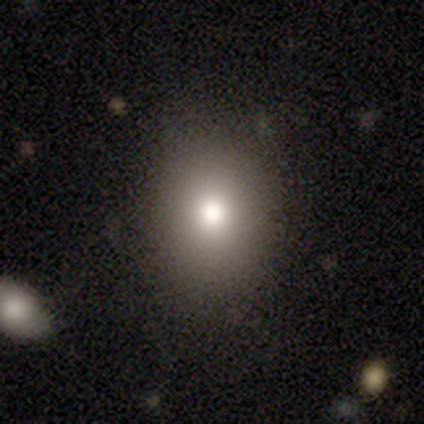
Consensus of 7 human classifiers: This is clearly a smooth galaxy (100%). How rounded: possibly round (57%). Merging: clearly none (100%).